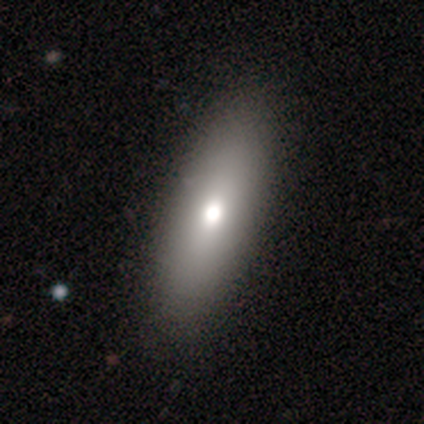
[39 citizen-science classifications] A smooth galaxy with no disk features (72%) that is in between round and cigar-shaped (61%).

Vote fractions:
- Smooth or featured? smooth: 72% / featured or disk: 26% / star or artifact: 3%
- How rounded? in between: 61% / cigar-shaped: 32% / round: 7%
- Merging? none: 58% / minor disturbance: 8% / major disturbance: 0% / merger: 0%